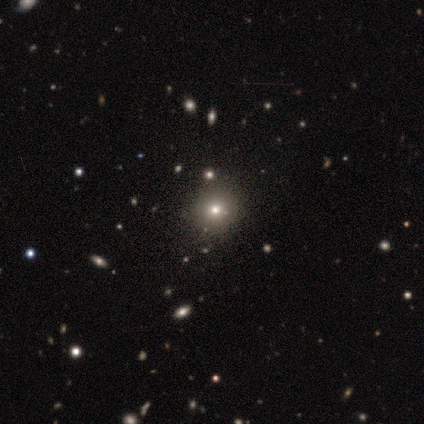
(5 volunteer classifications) This appears to be a smooth galaxy with no disk features (100%) that is round (80%). Merging: none (40%).